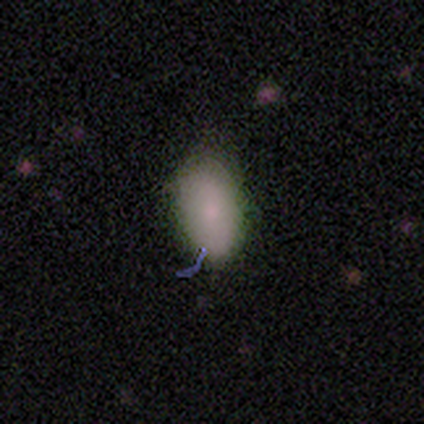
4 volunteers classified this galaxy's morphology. smooth-or-featured: smooth: 100% | featured or disk: 0% | star or artifact: 0%
  how-rounded: in between: 100% | round: 0% | cigar-shaped: 0%
  merging: minor disturbance: 75% | none: 25% | major disturbance: 0% | merger: 0%